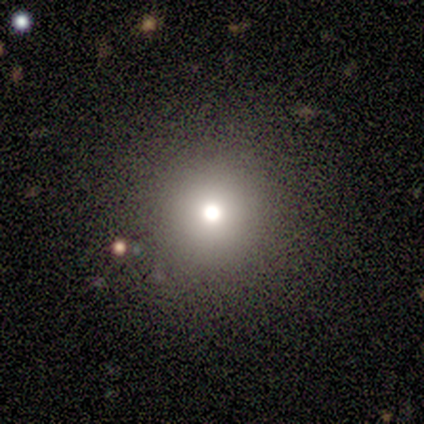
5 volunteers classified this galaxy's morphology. smooth_or_featured: smooth (p=0.40) [tied with: featured or disk p=0.40]
how_rounded: round (p=1.00)
merging: none (p=0.75) [alt: minor disturbance p=0.25]